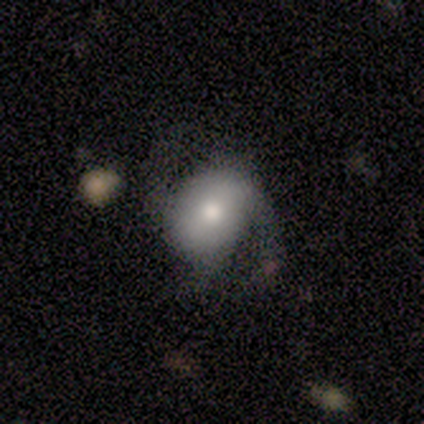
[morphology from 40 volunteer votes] Q: Smooth or featured?
A: featured or disk (60%); runner-up: smooth (32%)
Q: Edge-on disk?
A: no (96%); runner-up: yes (4%)
Q: Bar?
A: no (52%); runner-up: weak (39%)
Q: Spiral arms?
A: yes (96%); runner-up: no (4%)
Q: Spiral winding?
A: medium (50%); runner-up: loose (41%)
Q: Spiral arm count?
A: 2 (82%); runner-up: 3 (14%)
Q: Bulge size?
A: moderate (43%); runner-up: small (39%)
Q: Merging?
A: none (62%); runner-up: minor disturbance (22%)